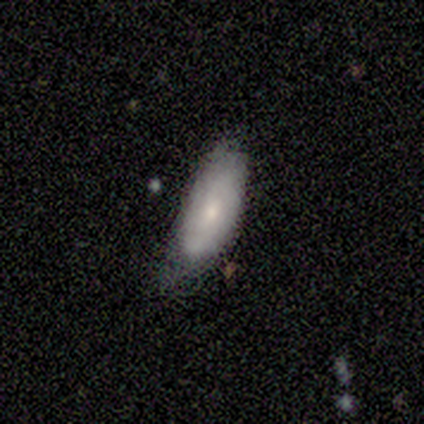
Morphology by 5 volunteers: Smooth or featured? smooth (80%)
How rounded? in between (100%)
Merging? none (40%, tied with minor disturbance)